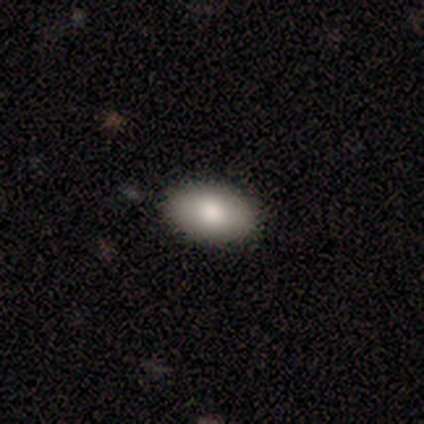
Overall: smooth (78%). How rounded: in between (97%). Merging: none (82%).